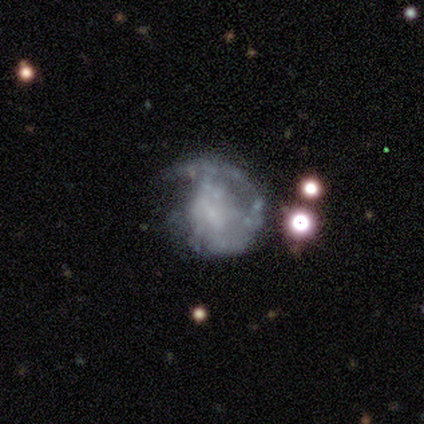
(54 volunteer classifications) Morphology: type=featured or disk (83%); edge-on=no (100%); bar=no (53%); spiral arms=no (53%); bulge=none (58%); merging=none (34%).